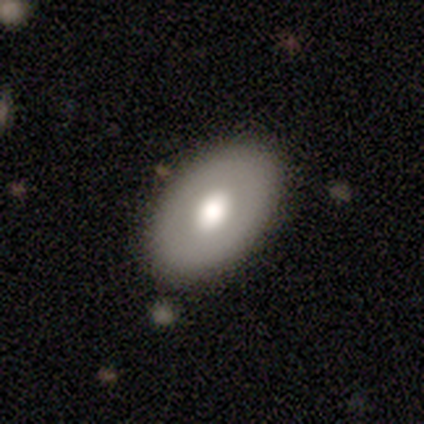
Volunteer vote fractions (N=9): A smooth galaxy with no disk features (56%) that is in between round and cigar-shaped (100%). Merging: none (89%).